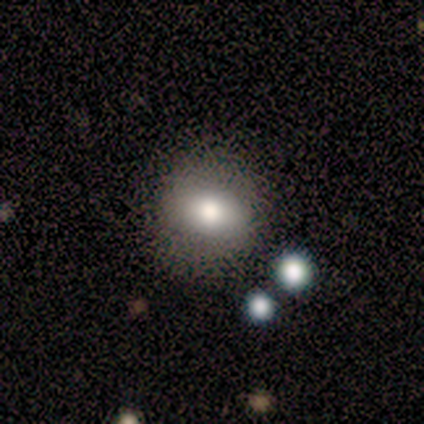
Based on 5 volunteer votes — smooth-or-featured: smooth: 40% (tied) | featured or disk: 40% (tied) | star or artifact: 20%
  how-rounded: round: 100% | in between: 0% | cigar-shaped: 0%
  merging: none: 75% | major disturbance: 25% | minor disturbance: 0% | merger: 0%